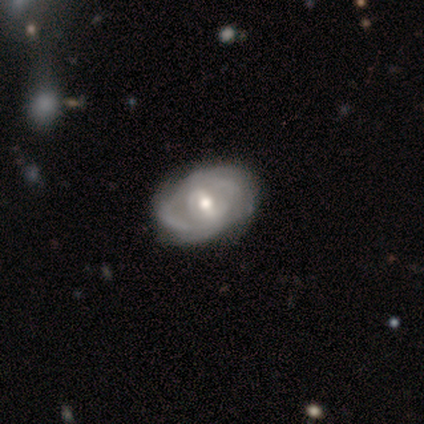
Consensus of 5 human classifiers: smooth-or-featured: featured or disk: 100% | smooth: 0% | star or artifact: 0%
  disk-edge-on: no: 100% | yes: 0%
    bar: weak: 80% | strong: 20% | no: 0%
    has-spiral-arms: yes: 80% | no: 20%
      spiral-winding: medium: 75% | tight: 25% | loose: 0%
      spiral-arm-count: 2: 50% (tied) | 4: 50% (tied) | 1: 0% | 3: 0% | more than 4: 0% | can't tell: 0%
    bulge-size: moderate: 80% | small: 20% | dominant: 0% | large: 0% | none: 0%
  merging: none: 60% | major disturbance: 20% | merger: 20% | minor disturbance: 0%